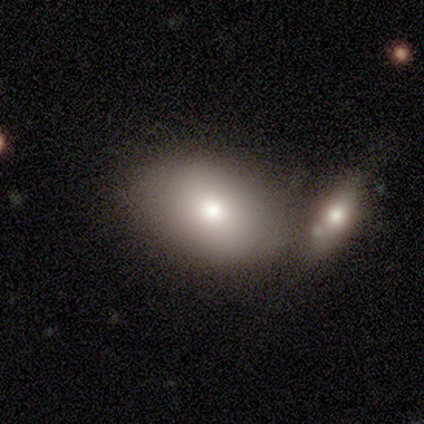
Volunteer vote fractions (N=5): smooth_or_featured: smooth (p=0.80) [alt: star or artifact p=0.20]
how_rounded: in between (p=1.00)
merging: none (p=0.50) [tied with: merger p=0.50]